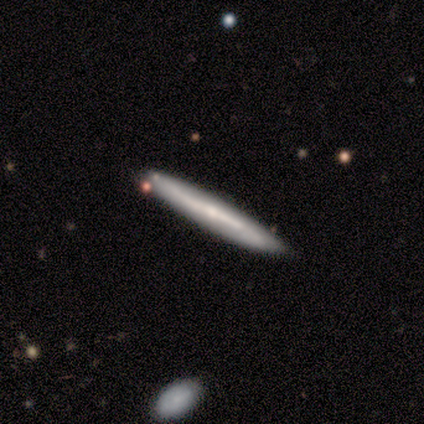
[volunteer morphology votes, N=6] smooth 83%, featured or disk 17%, star or artifact 0%. Down the decision tree: how rounded — cigar-shaped (100%); merging — none (100%).